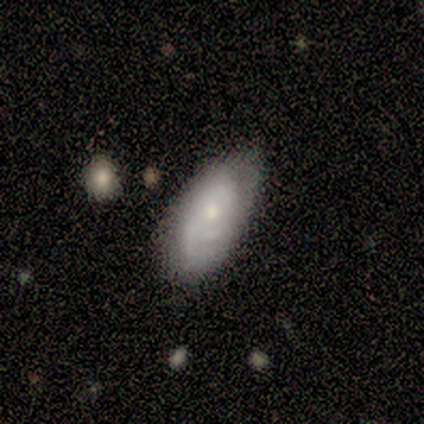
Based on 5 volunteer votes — This appears to be a featured or disk galaxy (60%) with no bar (100%), 2 (100%) tight (50%, tied with medium) spiral arms (100%) and a moderate central bulge (50%, tied with small). Merging: none (100%).